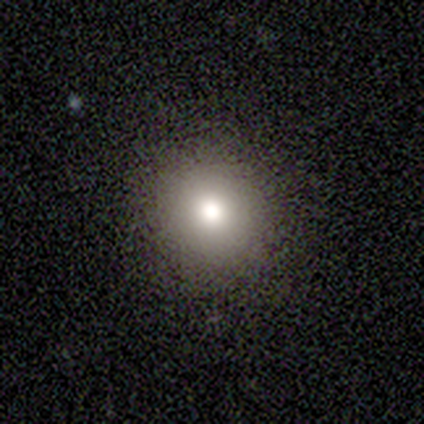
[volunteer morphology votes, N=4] Smooth or featured? smooth (50%)
How rounded? round (50%, tied with in between)
Merging? none (100%)